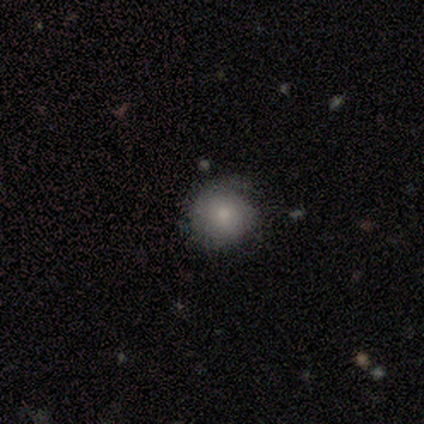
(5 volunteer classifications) Smooth or featured: smooth — 100%
How rounded: round — 100%
Merging: none — 80% (minor disturbance — 20%)